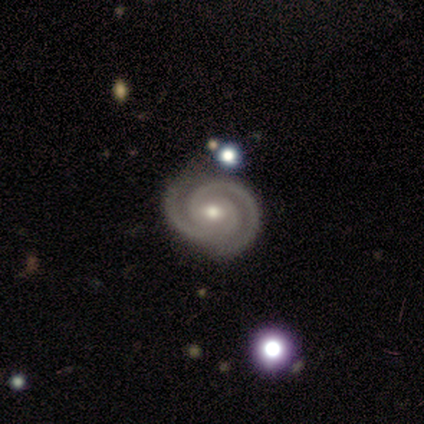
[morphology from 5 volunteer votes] type=featured or disk (100%); edge-on=no (100%); bar=weak (40%, tied with no); spiral arms=yes (100%); winding=tight (60%); arm count=2 (100%); bulge=moderate (80%); merging=none (100%).